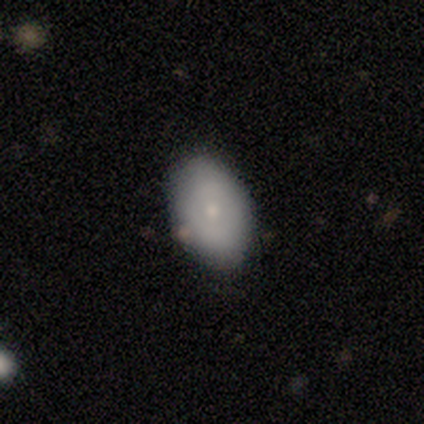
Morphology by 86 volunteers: Q: Smooth or featured?
A: smooth (84%); runner-up: featured or disk (13%)
Q: How rounded?
A: in between (92%); runner-up: round (6%)
Q: Merging?
A: none (83%); runner-up: minor disturbance (13%)